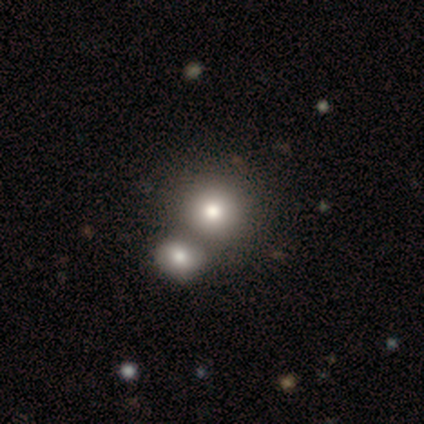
Smooth or featured? smooth (80%)
How rounded? round (100%)
Merging? merger (100%)